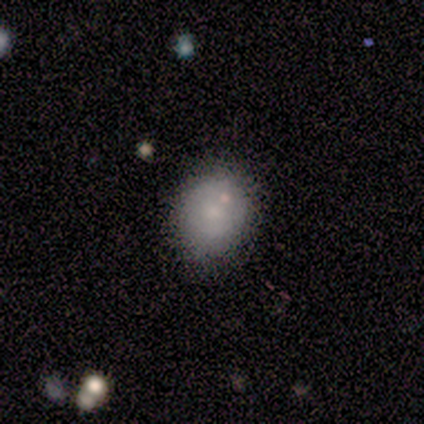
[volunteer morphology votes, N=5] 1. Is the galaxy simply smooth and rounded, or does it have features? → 100% smooth, 0% featured or disk, 0% star or artifact.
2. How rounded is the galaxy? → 80% in between, 20% round, 0% cigar-shaped.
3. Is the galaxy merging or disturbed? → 60% none, 40% minor disturbance, 0% major disturbance, 0% merger.